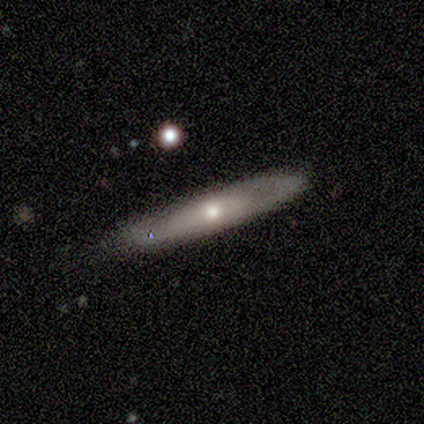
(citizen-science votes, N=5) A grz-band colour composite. It shows a smooth galaxy with no disk features (60%) that is cigar-shaped (100%). Merging: none (80%).